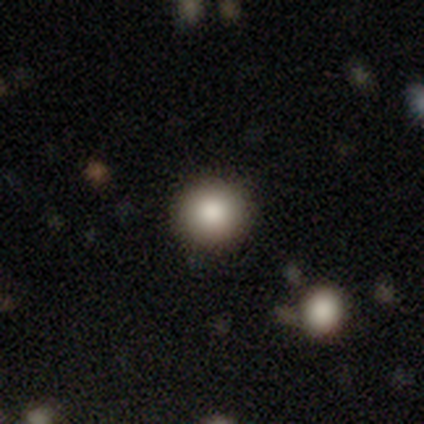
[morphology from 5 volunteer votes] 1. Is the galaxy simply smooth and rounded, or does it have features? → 80% smooth, 20% star or artifact, 0% featured or disk.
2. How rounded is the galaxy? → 100% round, 0% in between, 0% cigar-shaped.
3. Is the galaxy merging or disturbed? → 75% none, 25% major disturbance, 0% minor disturbance, 0% merger.